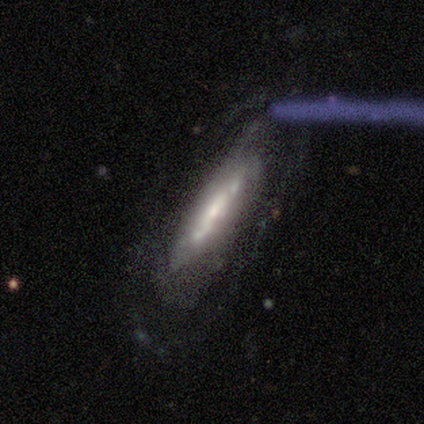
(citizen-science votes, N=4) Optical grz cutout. It shows a featured or disk galaxy (100%) viewed edge-on (50%, tied with no) with no central bulge (50%, tied with rounded). Merging: none (50%).